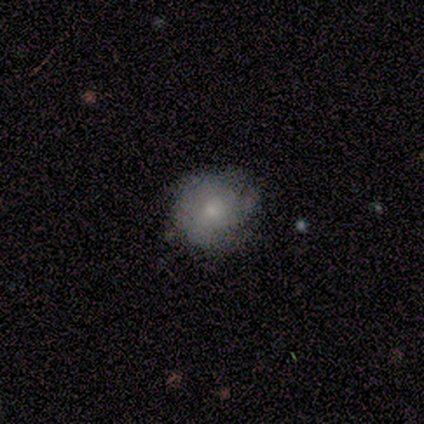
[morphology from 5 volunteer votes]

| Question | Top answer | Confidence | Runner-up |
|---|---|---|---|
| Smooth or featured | smooth | 60% | featured or disk (40%) |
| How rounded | in between | 67% | round (33%) |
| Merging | none | 60% | minor disturbance (40%) |